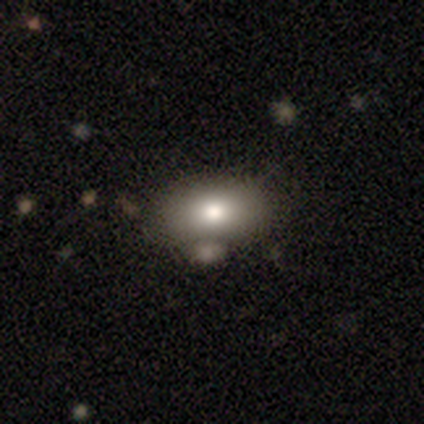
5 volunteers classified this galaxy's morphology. type=smooth (80%); roundness=in between (75%); merging=none (40%).